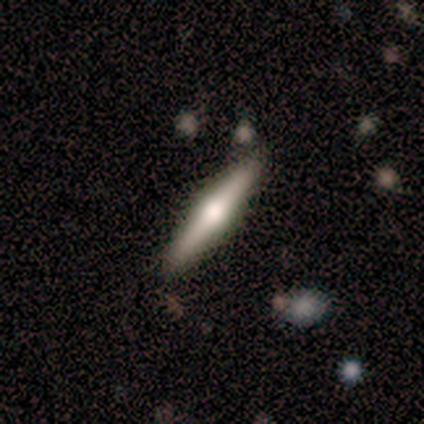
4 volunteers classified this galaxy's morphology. smooth_or_featured: featured or disk (p=0.75) [alt: smooth p=0.25]
disk_edge_on: yes (p=1.00)
edge_on_bulge: rounded (p=1.00)
merging: none (p=0.75) [alt: minor disturbance p=0.25]